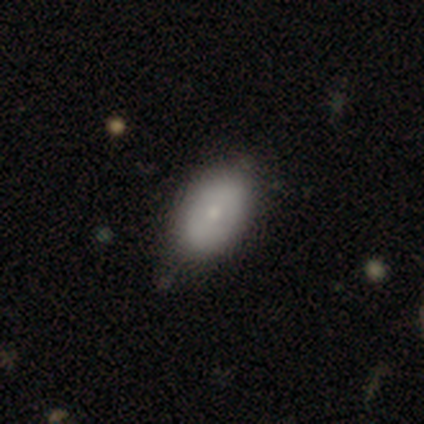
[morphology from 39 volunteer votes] Q: Smooth or featured?
A: smooth (74%); runner-up: featured or disk (23%)
Q: How rounded?
A: in between (97%); runner-up: round (3%)
Q: Merging?
A: none (47%); runner-up: minor disturbance (13%)